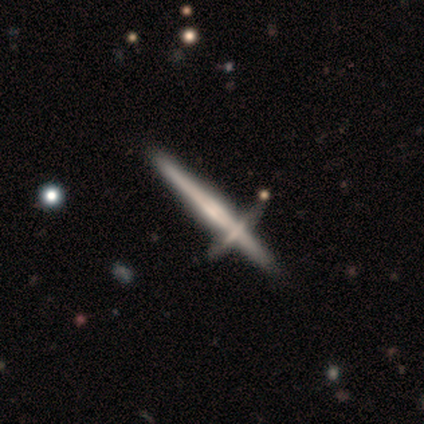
Smooth or featured: featured or disk — 68% (smooth — 28%)
Edge-on disk: yes — 97% (no — 3%)
Edge-on bulge: rounded — 39% (boxy — 30%)
Merging: none — 65% (merger — 29%)